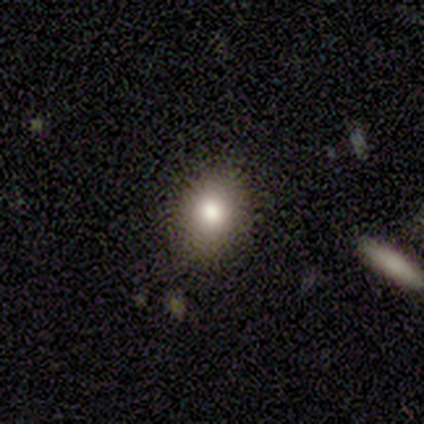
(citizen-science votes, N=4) Overall: smooth (50%, tied with featured or disk). How rounded: round (100%). Merging: none (100%).